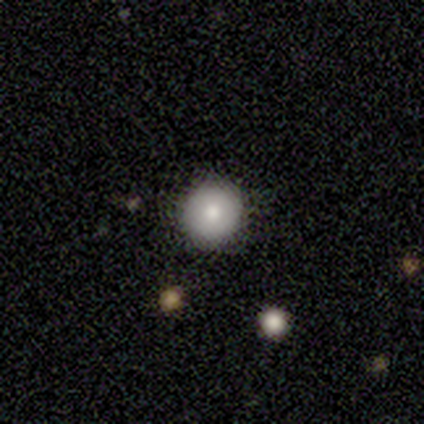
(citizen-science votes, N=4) This appears to be a smooth galaxy with no disk features (50%, tied with star or artifact) that is round (100%). Merging: none (100%).